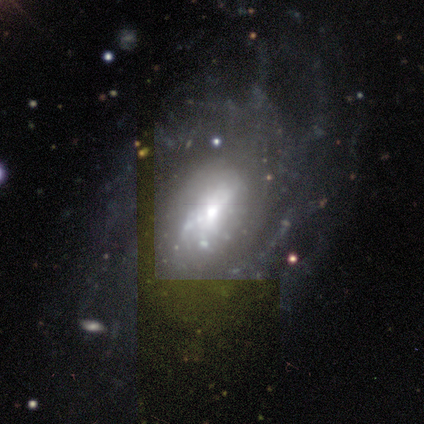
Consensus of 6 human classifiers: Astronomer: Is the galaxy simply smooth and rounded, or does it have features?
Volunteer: featured or disk — 100%.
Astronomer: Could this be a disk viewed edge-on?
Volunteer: no — 100%.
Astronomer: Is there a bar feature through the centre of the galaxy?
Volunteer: no — 50% (runner-up: weak, 33%).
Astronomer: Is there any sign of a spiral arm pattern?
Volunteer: yes — 50%, tied with no at 50%.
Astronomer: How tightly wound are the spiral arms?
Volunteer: tight — 33%, tied with medium and loose at 33%.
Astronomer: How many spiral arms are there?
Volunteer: can't tell — 67%.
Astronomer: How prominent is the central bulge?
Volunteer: moderate — 83%.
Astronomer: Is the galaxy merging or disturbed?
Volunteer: none — 67%.